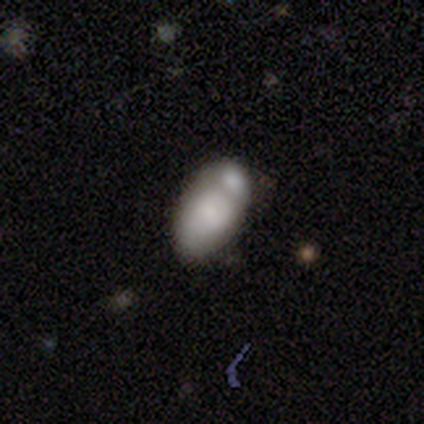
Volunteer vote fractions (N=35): Volunteers were most divided on "merging": merger: 59%, none: 28%, minor disturbance: 9%, major disturbance: 3%. More confident: how rounded — in between (96%); smooth or featured — smooth (69%).